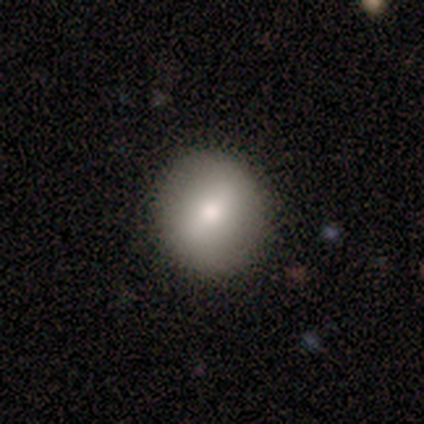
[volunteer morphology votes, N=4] This appears to be a smooth galaxy with no disk features (50%) that is round (100%). Merging: none (100%).